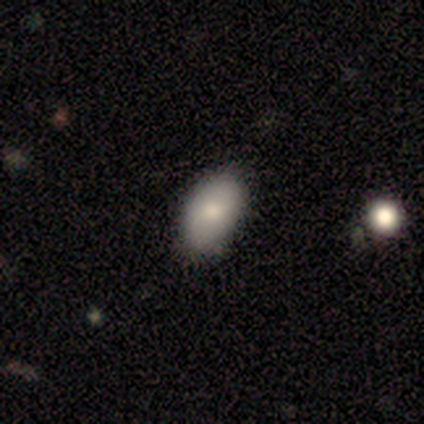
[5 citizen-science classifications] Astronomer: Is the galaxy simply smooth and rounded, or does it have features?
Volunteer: smooth — 100%.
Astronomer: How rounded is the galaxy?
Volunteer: in between — 100%.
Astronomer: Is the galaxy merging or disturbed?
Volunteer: none — 80%.